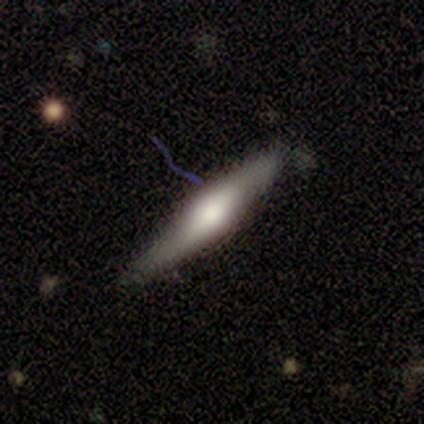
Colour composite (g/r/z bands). It shows a featured or disk galaxy (57%) viewed edge-on (95%) with a rounded central bulge (80%). Merging: none (61%).